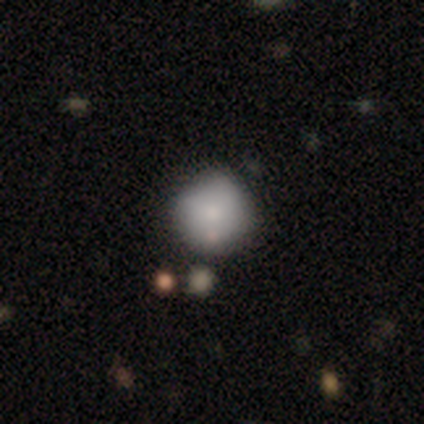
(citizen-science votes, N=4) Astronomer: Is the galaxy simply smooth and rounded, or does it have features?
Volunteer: smooth — 75%.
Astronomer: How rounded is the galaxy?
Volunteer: round — 67%.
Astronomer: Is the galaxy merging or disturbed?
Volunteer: none — 100%.